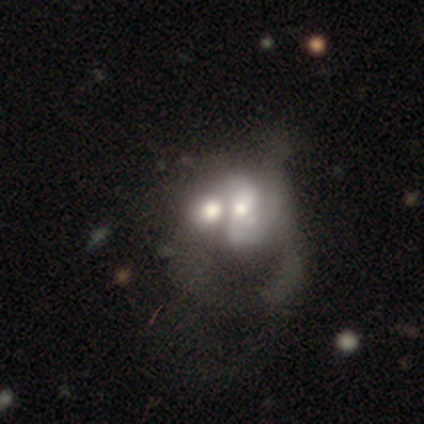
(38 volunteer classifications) smooth_or_featured: featured or disk (p=0.50) [alt: smooth p=0.42]
disk_edge_on: no (p=1.00)
bar: no (p=0.74) [alt: weak p=0.16]
has_spiral_arms: yes (p=0.53) [alt: no p=0.47]
spiral_winding: medium (p=0.50) [tied with: loose p=0.50]
spiral_arm_count: can't tell (p=0.50) [alt: 2 p=0.30]
bulge_size: moderate (p=0.68) [alt: large p=0.16]
merging: merger (p=0.69) [alt: major disturbance p=0.09]